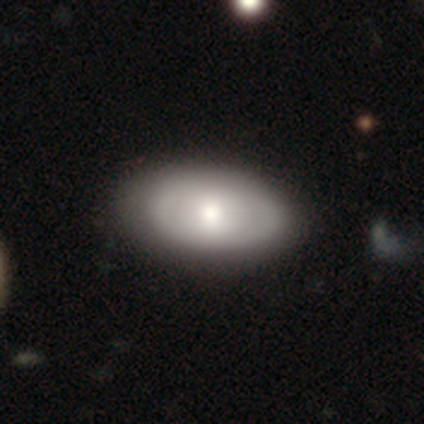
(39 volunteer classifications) This is likely a smooth galaxy (72%). How rounded: clearly in between (96%). Merging: marginally none (44%).